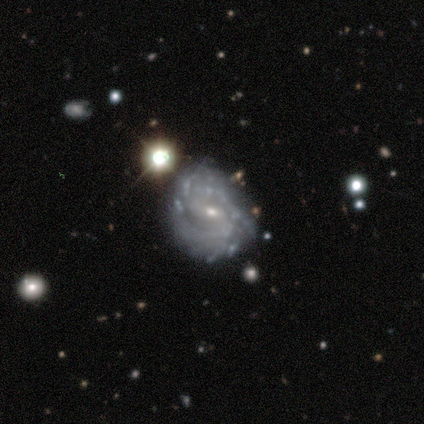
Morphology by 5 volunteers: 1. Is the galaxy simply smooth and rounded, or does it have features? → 60% featured or disk, 40% smooth, 0% star or artifact.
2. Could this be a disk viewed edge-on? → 100% no, 0% yes.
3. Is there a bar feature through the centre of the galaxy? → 67% weak, 33% no, 0% strong.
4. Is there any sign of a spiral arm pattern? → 100% yes, 0% no.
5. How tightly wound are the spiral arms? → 100% medium, 0% tight, 0% loose.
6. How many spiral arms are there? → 67% can't tell, 33% 2, 0% 1, 0% 3, 0% 4, 0% more than 4.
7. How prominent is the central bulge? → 100% small, 0% dominant, 0% large, 0% moderate, 0% none.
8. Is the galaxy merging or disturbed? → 60% minor disturbance, 40% none, 0% major disturbance, 0% merger.